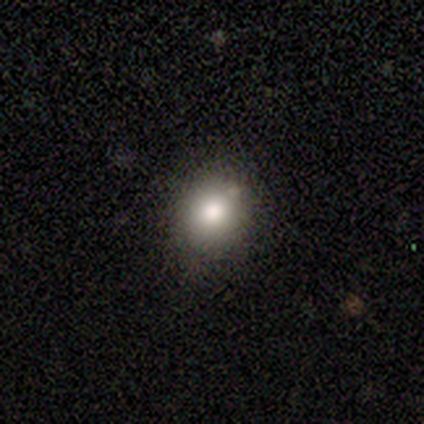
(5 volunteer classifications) Smooth or featured: smooth — 100%
How rounded: round — 80% (in between — 20%)
Merging: none — 100%